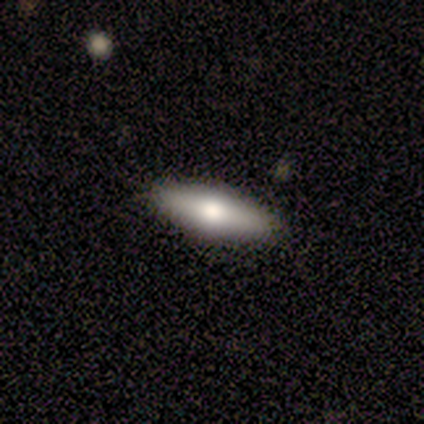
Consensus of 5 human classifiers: smooth-or-featured: smooth: 80% | featured or disk: 20% | star or artifact: 0%
  how-rounded: in between: 100% | round: 0% | cigar-shaped: 0%
  merging: none: 100% | minor disturbance: 0% | major disturbance: 0% | merger: 0%